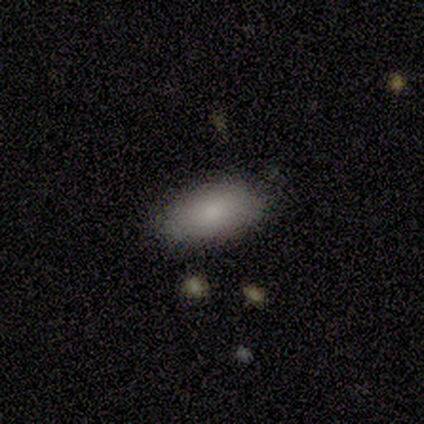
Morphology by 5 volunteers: Smooth or featured?
  - smooth: 80% *
  - featured or disk: 20%
  - star or artifact: 0%
How rounded?
  - in between: 100% *
  - round: 0%
  - cigar-shaped: 0%
Merging?
  - none: 80% *
  - major disturbance: 20%
  - minor disturbance: 0%
  - merger: 0%